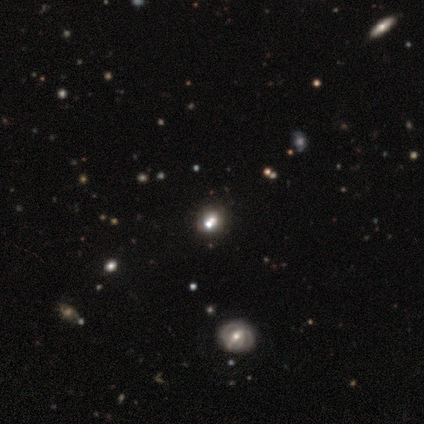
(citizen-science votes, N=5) This appears to be a smooth galaxy with no disk features (40%, tied with star or artifact) that is round (100%). Merging: none (100%).